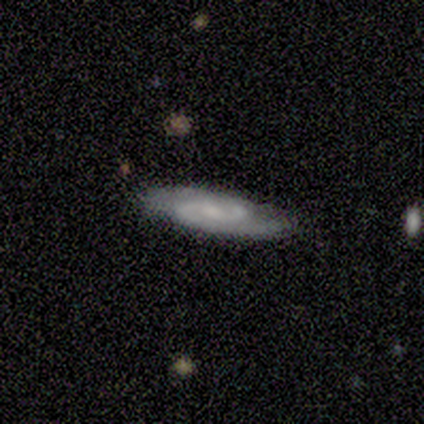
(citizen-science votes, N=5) This is clearly a featured or disk galaxy (80%). It is clearly not viewed edge-on (100%). Bar: possibly weak (50%). Spiral arm pattern: clearly yes (100%). Spiral arm count: clearly 2 (100%). Spiral winding: possibly medium (50%). Central bulge: possibly moderate (50%, tied with small). Merging: clearly none (100%).